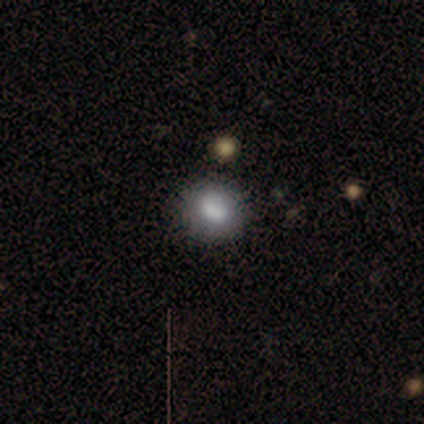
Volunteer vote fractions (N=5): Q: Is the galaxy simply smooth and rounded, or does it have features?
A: smooth — 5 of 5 (100%).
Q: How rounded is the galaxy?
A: round — 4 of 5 (80%).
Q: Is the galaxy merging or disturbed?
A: none — 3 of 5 (60%).